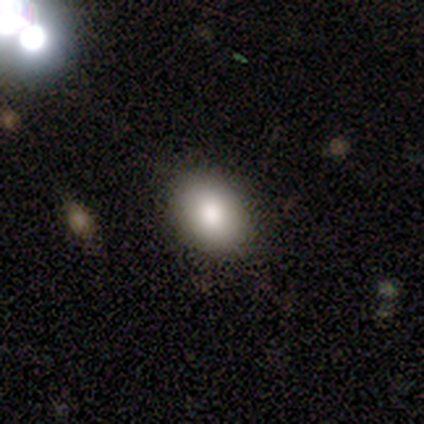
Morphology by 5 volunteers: This appears to be a smooth galaxy with no disk features (80%) that is in between round and cigar-shaped (75%). Merging: none (100%).